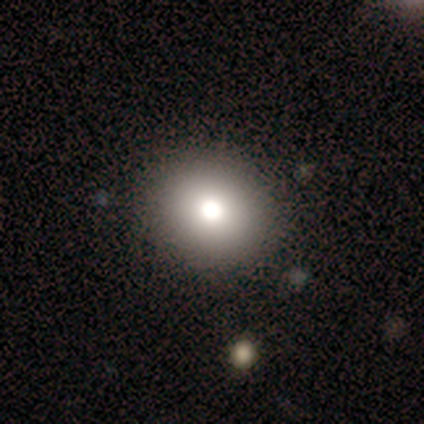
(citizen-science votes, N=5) smooth_or_featured: smooth (p=1.00)
how_rounded: round (p=0.80) [alt: in between p=0.20]
merging: none (p=0.80) [alt: minor disturbance p=0.20]